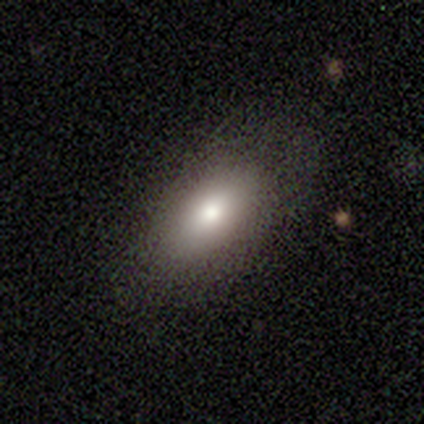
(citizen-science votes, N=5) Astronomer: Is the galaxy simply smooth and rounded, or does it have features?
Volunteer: smooth — 80%.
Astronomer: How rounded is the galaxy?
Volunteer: in between — 100%.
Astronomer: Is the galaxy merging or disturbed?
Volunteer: none — 80%.